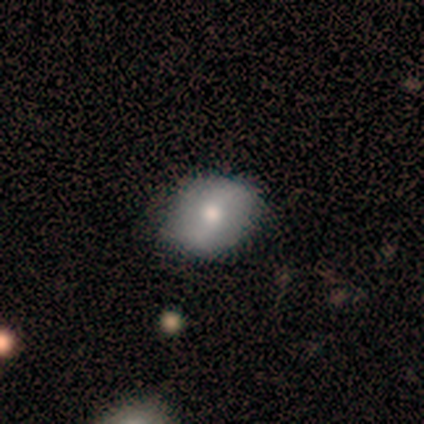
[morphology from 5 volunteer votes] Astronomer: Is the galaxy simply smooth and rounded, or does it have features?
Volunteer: featured or disk — 80%.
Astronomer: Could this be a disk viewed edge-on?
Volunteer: no — 100%.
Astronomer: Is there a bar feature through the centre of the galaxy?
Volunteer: no — 50%.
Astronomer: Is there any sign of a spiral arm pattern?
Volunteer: yes — 75%.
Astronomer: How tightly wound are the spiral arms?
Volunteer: loose — 100%.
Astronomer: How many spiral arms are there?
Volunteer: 2 — 67%.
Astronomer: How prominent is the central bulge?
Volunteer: moderate — 75%.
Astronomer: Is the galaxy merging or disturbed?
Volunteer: none — 100%.